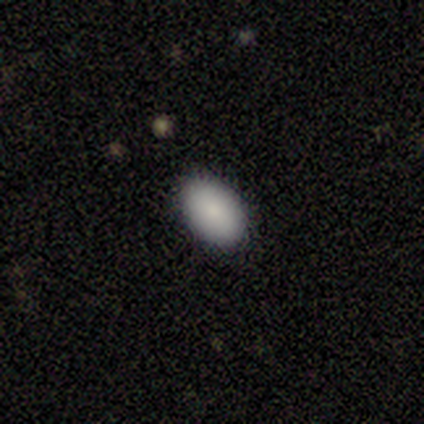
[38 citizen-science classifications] Smooth or featured: smooth — 87% (featured or disk — 8%)
How rounded: in between — 100%
Merging: none — 92% (minor disturbance — 6%)